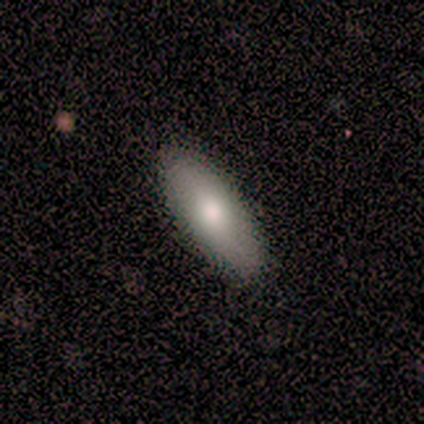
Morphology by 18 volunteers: type=smooth (83%); roundness=in between (100%); merging=none (94%).